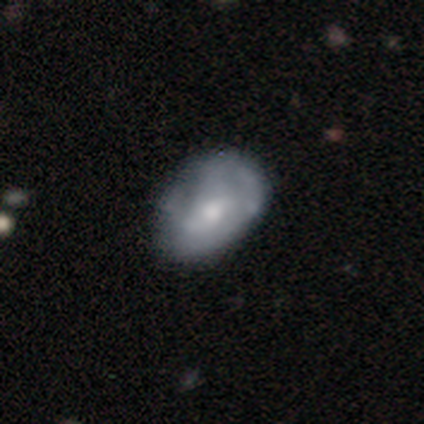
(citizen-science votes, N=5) Smooth or featured? featured or disk (60%)
Edge-on disk? no (100%)
Bar? no (67%)
Spiral arms? no (67%)
Bulge size? moderate (67%)
Merging? none (100%)